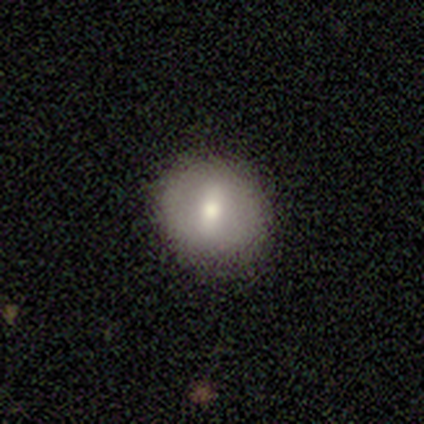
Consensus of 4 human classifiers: Smooth or featured: smooth — 75% (featured or disk — 25%)
How rounded: round — 100%
Merging: none — 75% (major disturbance — 25%)